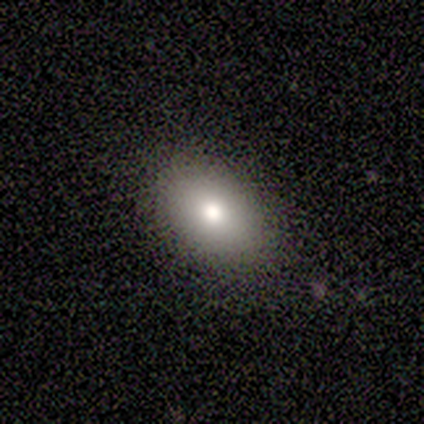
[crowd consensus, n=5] This appears to be a smooth galaxy with no disk features (80%) that is in between round and cigar-shaped (100%). Merging: none (100%).